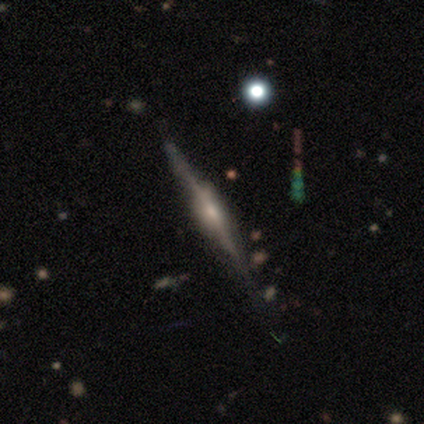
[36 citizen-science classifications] Smooth or featured: featured or disk — 81% (smooth — 14%)
Edge-on disk: yes — 97% (no — 3%)
Edge-on bulge: rounded — 57% (boxy — 39%)
Merging: none — 88% (minor disturbance — 6%)